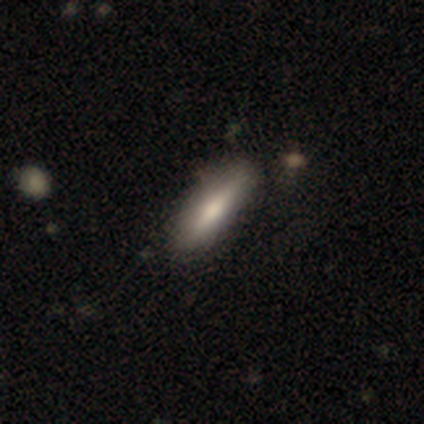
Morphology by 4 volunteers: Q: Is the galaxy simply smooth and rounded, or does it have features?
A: smooth — 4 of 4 (100%).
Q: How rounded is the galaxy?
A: cigar-shaped — 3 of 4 (75%).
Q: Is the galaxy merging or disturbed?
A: none — 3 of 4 (75%).